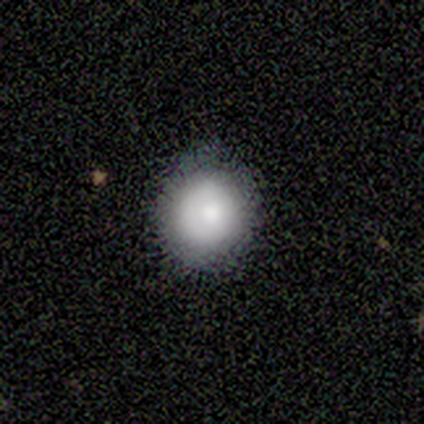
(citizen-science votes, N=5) This is likely a smooth galaxy (60%). How rounded: clearly round (100%). Merging: likely none (75%).